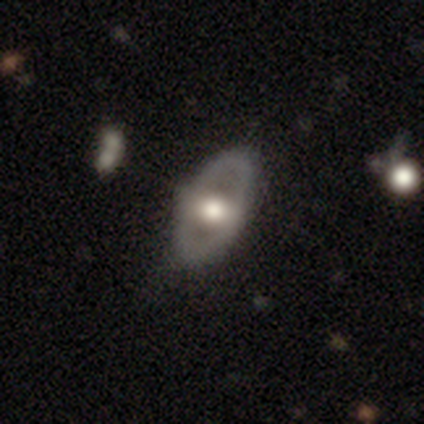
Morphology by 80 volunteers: smooth_or_featured: featured or disk (p=0.60) [alt: smooth p=0.39]
disk_edge_on: no (p=0.83) [alt: yes p=0.17]
bar: no (p=0.62) [alt: weak p=0.25]
has_spiral_arms: no (p=0.88) [alt: yes p=0.12]
bulge_size: moderate (p=0.50) [alt: large p=0.40]
merging: none (p=0.39) [alt: minor disturbance p=0.08]